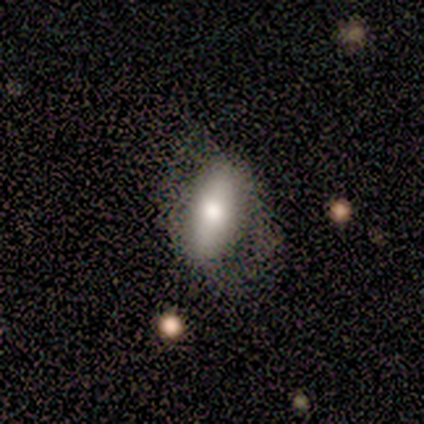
Smooth or featured?
  - smooth: 80% *
  - featured or disk: 20%
  - star or artifact: 0%
How rounded?
  - in between: 75% *
  - cigar-shaped: 25%
  - round: 0%
Merging?
  - minor disturbance: 40% * (tied)
  - major disturbance: 40% * (tied)
  - merger: 20%
  - none: 0%